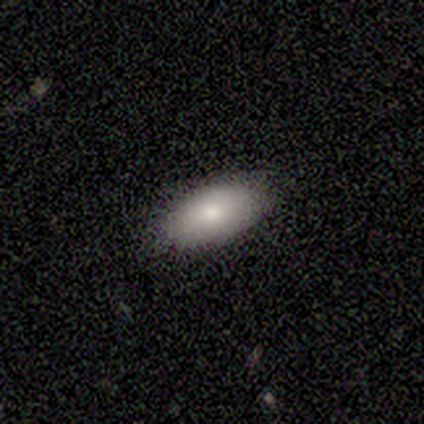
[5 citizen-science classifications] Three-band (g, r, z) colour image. It shows a smooth galaxy with no disk features (100%) that is in between round and cigar-shaped (80%). Merging: none (80%).